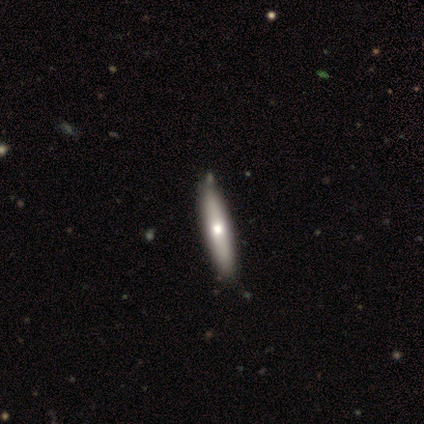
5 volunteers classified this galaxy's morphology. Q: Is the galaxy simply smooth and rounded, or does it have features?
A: featured or disk — 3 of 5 (60%).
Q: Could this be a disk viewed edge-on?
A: no — 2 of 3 (67%).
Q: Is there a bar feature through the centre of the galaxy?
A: no — 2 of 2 (100%).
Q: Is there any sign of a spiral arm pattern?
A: no — 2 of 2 (100%).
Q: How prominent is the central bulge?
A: moderate — 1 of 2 (50%, tied with small).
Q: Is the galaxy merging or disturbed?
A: none — 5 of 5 (100%).